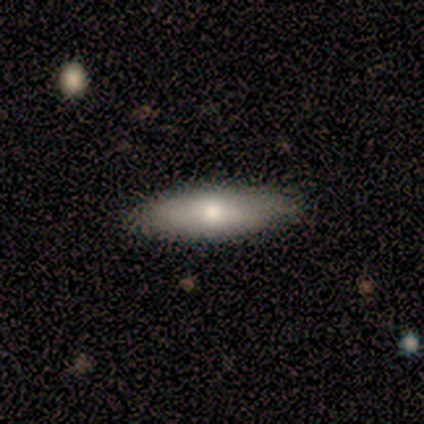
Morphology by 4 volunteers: smooth-or-featured: smooth: 75% | star or artifact: 25% | featured or disk: 0%
  how-rounded: in between: 100% | round: 0% | cigar-shaped: 0%
  merging: none: 100% | minor disturbance: 0% | major disturbance: 0% | merger: 0%